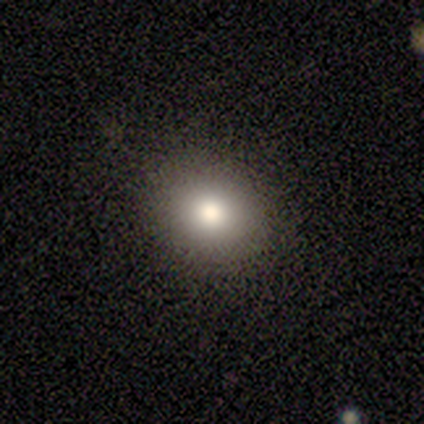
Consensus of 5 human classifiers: A smooth galaxy with no disk features (80%) that is round (75%).

Vote fractions:
- Smooth or featured? smooth: 80% / star or artifact: 20% / featured or disk: 0%
- How rounded? round: 75% / in between: 25% / cigar-shaped: 0%
- Merging? none: 100% / minor disturbance: 0% / major disturbance: 0% / merger: 0%